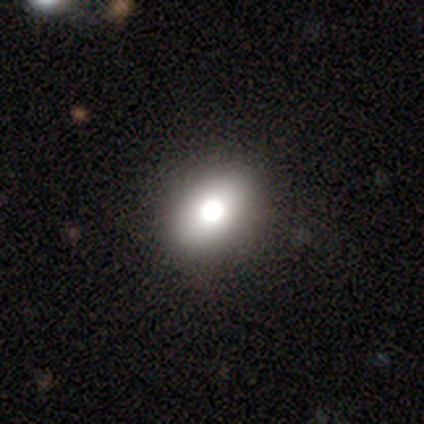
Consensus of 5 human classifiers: A featured or disk galaxy (60%) with no bar (67%), no spiral arms (100%) and a large central bulge (67%). Merging: none (80%).